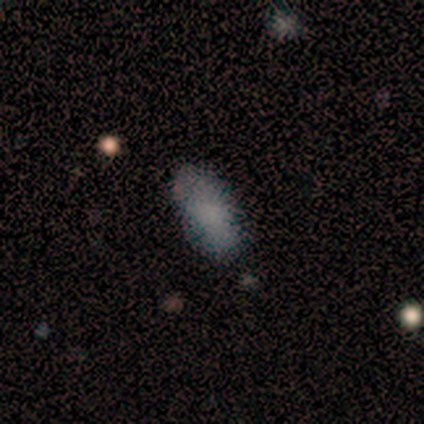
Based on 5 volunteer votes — Smooth or featured?
  - smooth: 80% *
  - star or artifact: 20%
  - featured or disk: 0%
How rounded?
  - in between: 100% *
  - round: 0%
  - cigar-shaped: 0%
Merging?
  - none: 75% *
  - minor disturbance: 25%
  - major disturbance: 0%
  - merger: 0%